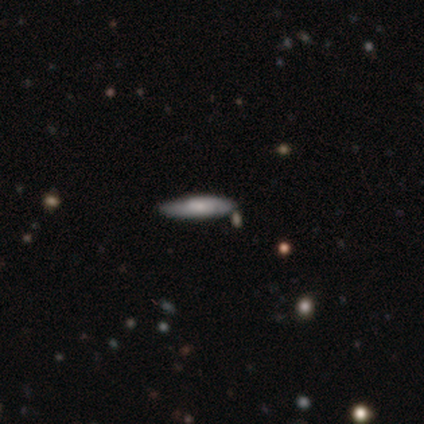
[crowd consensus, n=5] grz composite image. It shows a featured or disk galaxy (60%) viewed edge-on (67%) with a boxy central bulge (50%, tied with rounded). Merging: none (60%).